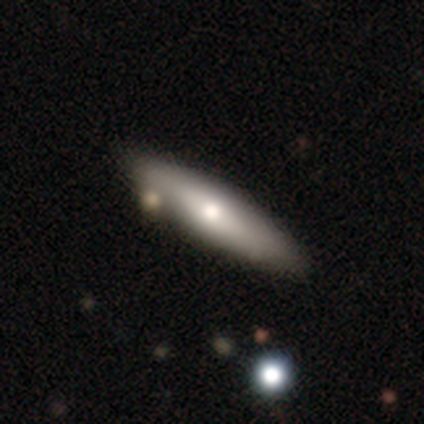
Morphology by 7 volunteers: Smooth or featured?
  - featured or disk: 57% *
  - smooth: 43%
  - star or artifact: 0%
Edge-on disk?
  - yes: 75% *
  - no: 25%
Edge-on bulge?
  - rounded: 100% *
  - boxy: 0%
  - none: 0%
Merging?
  - none: 86% *
  - minor disturbance: 14%
  - major disturbance: 0%
  - merger: 0%